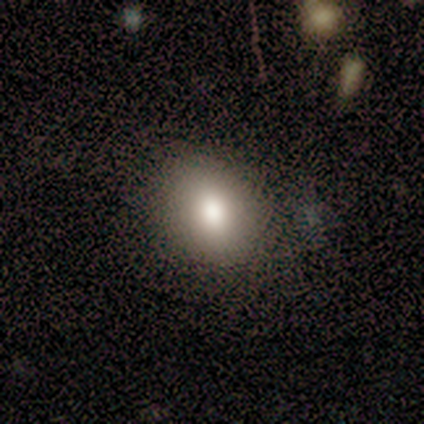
This appears to be a featured or disk galaxy (60%) with no bar (100%), no spiral arms (100%) and a moderate central bulge (100%). Merging: none (80%).